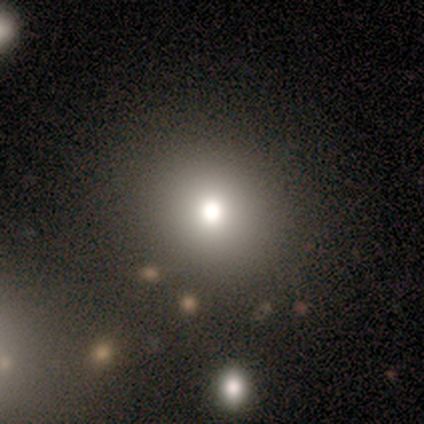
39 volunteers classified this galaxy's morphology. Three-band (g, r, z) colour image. It shows a smooth galaxy with no disk features (72%) that is round (86%). Merging: none (84%).